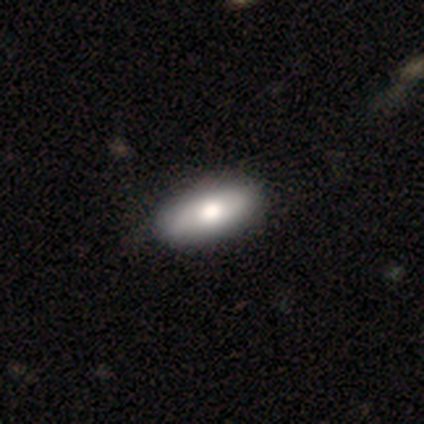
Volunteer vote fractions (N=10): smooth 90%, featured or disk 10%, star or artifact 0%. Down the decision tree: how rounded — in between (78%); merging — none (60%).